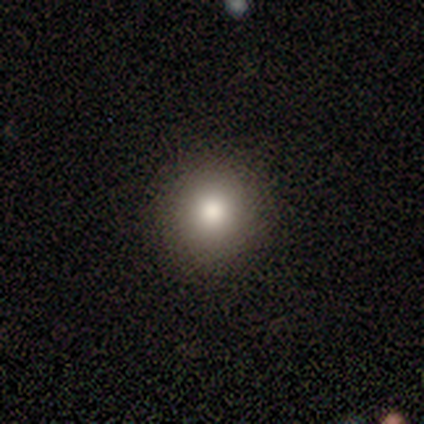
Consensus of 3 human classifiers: A star or artifact, not a galaxy (100%).

Vote fractions:
- Smooth or featured? star or artifact: 100% / smooth: 0% / featured or disk: 0%